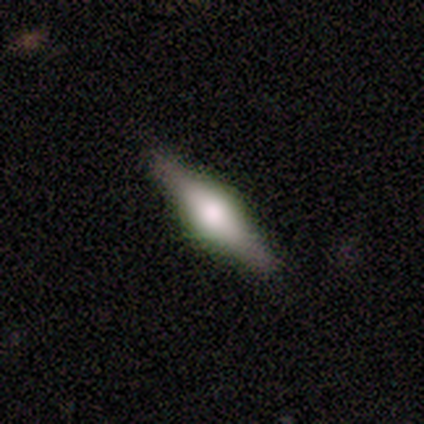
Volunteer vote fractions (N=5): Q: Smooth or featured?
A: featured or disk (60%); runner-up: smooth (40%)
Q: Edge-on disk?
A: yes (67%); runner-up: no (33%)
Q: Edge-on bulge?
A: rounded (100%)
Q: Merging?
A: none (60%); runner-up: minor disturbance (40%)